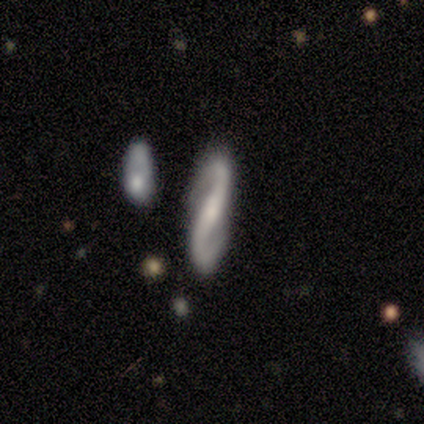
featured or disk 93%, smooth 7%, star or artifact 0%. Down the decision tree: edge-on disk — no (95%); bar — strong (57%); spiral arms — yes (100%); spiral arm count — 2 (97%); spiral winding — loose (41%); bulge size — small (46%); merging — none (86%).